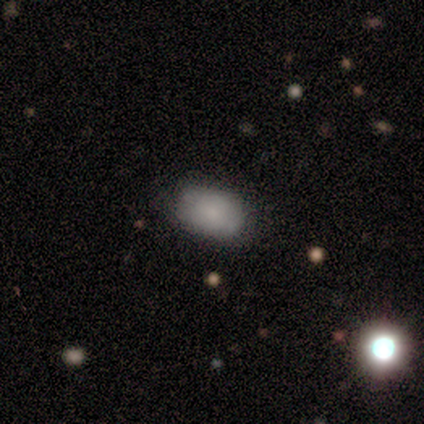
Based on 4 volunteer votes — smooth-or-featured: smooth: 100% | featured or disk: 0% | star or artifact: 0%
  how-rounded: in between: 100% | round: 0% | cigar-shaped: 0%
  merging: none: 50% (tied) | minor disturbance: 50% (tied) | major disturbance: 0% | merger: 0%